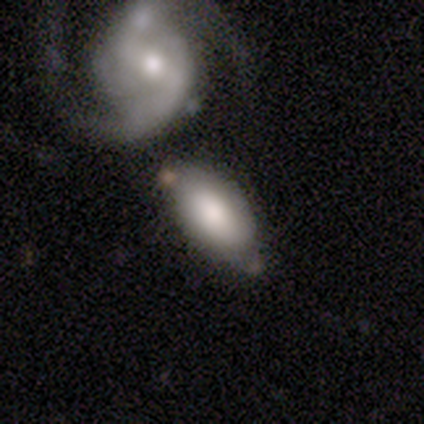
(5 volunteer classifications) Volunteers were most divided on "merging": minor disturbance: 60%, none: 20%, merger: 20%, major disturbance: 0%. More confident: smooth or featured — smooth (100%); how rounded — in between (100%).